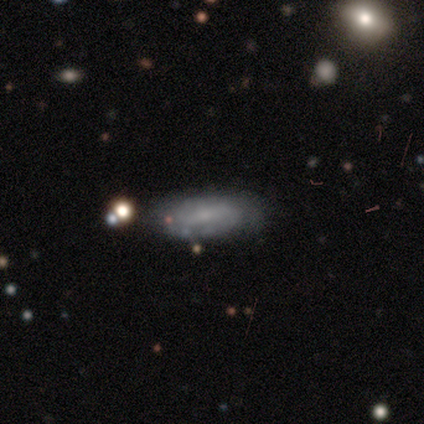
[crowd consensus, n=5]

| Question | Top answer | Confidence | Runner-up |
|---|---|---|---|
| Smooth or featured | smooth | 60% | featured or disk (20%) |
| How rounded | cigar-shaped | 67% | in between (33%) |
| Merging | none | 100% | — |